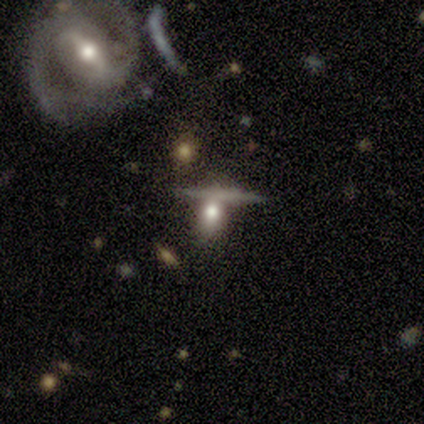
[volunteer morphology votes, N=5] This is marginally a smooth galaxy (40%, tied with featured or disk). How rounded: clearly in between (100%). Merging: likely none (75%).